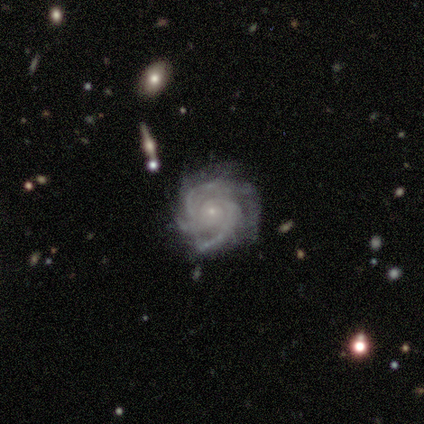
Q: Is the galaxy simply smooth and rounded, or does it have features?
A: featured or disk — 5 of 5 (100%).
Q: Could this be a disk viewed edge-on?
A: no — 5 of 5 (100%).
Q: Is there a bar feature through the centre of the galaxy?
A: no — 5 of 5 (100%).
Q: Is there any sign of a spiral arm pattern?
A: yes — 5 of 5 (100%).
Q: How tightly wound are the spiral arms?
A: tight — 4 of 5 (80%).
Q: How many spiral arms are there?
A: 3 — 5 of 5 (100%).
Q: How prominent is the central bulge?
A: small — 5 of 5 (100%).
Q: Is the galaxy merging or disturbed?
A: minor disturbance — 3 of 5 (60%).